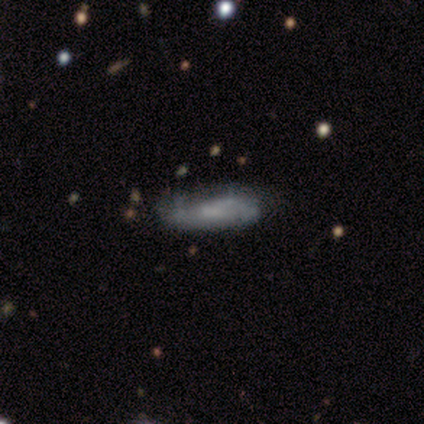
Volunteers were most divided on "smooth or featured" (2-way tie): smooth: 40%, star or artifact: 40%, featured or disk: 20%; "how rounded" (2-way tie): in between: 50%, cigar-shaped: 50%, round: 0%. More confident: merging — none (67%).